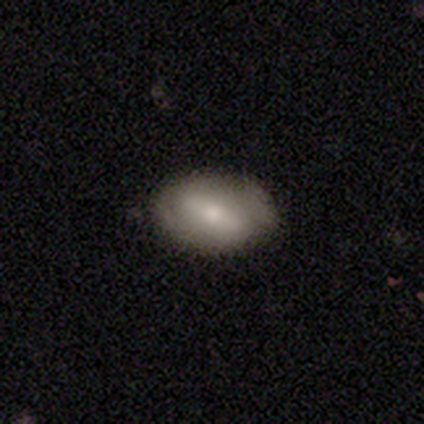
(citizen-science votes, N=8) This appears to be a featured or disk galaxy (75%) with a strong bar (60%), no spiral arms (80%) and a small central bulge (40%, tied with none). Merging: none (88%).